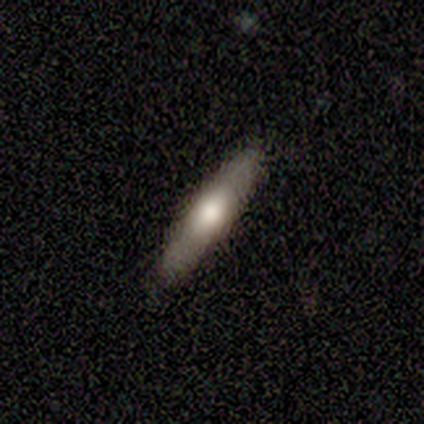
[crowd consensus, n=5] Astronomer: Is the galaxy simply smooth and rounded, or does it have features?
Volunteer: smooth — 80%.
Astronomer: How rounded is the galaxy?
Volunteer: cigar-shaped — 100%.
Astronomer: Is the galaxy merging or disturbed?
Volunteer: none — 100%.